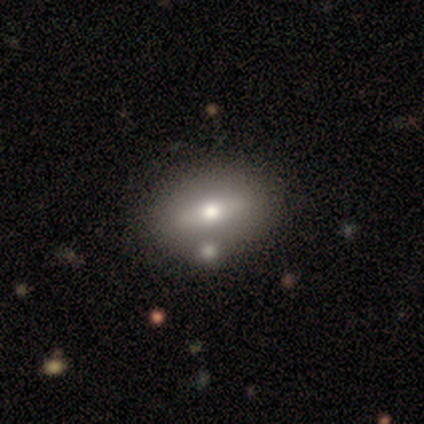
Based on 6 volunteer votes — Smooth or featured? smooth (67%)
How rounded? in between (100%)
Merging? none (67%)